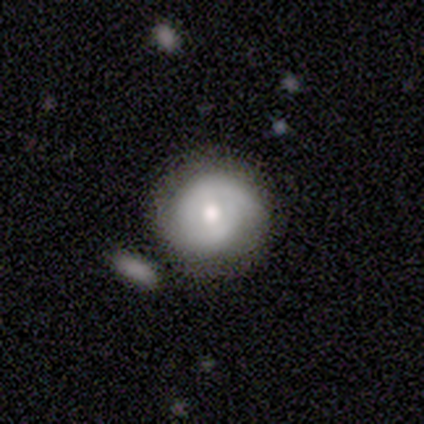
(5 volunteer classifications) smooth 60%, featured or disk 40%, star or artifact 0%. Down the decision tree: how rounded — round (100%); merging — none (60%).